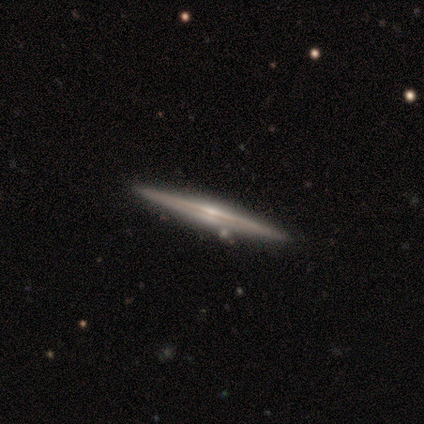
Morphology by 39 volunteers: Smooth or featured: featured or disk — 92% (smooth — 5%)
Edge-on disk: yes — 100%
Edge-on bulge: rounded — 69% (none — 19%)
Merging: none — 89% (minor disturbance — 5%)